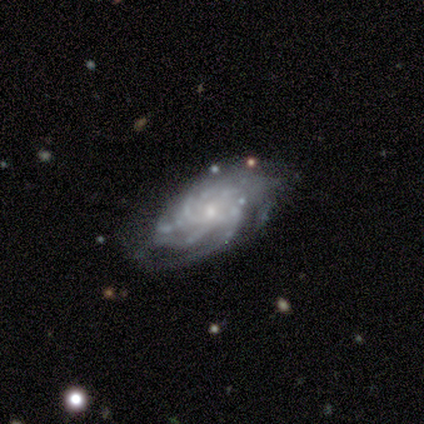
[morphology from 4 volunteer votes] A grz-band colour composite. It shows a featured or disk galaxy (100%) with no bar (100%), 4 (33%, tied with more than 4 and can't tell) medium (67%) spiral arms (100%) and a small central bulge (100%). Merging: none (100%).